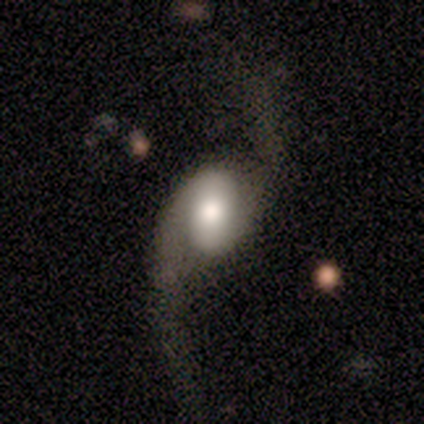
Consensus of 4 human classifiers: Q: Smooth or featured?
A: featured or disk (100%)
Q: Edge-on disk?
A: no (100%)
Q: Bar?
A: weak (50%); runner-up: strong (25%)
Q: Spiral arms?
A: yes (100%)
Q: Spiral winding?
A: loose (75%); runner-up: medium (25%)
Q: Spiral arm count?
A: 2 (75%); runner-up: 1 (25%)
Q: Bulge size?
A: large (50%); runner-up: moderate (25%)
Q: Merging?
A: none (50%); tied with: major disturbance (50%)